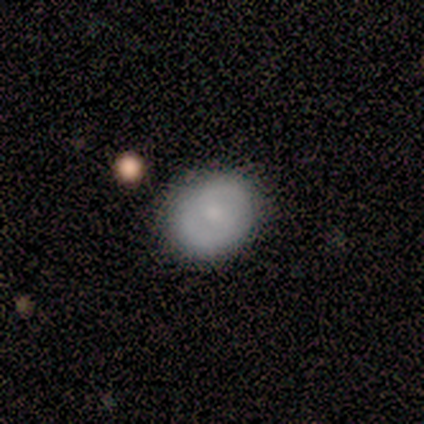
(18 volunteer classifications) Q: Smooth or featured?
A: smooth (67%); runner-up: featured or disk (33%)
Q: How rounded?
A: round (67%); runner-up: in between (33%)
Q: Merging?
A: none (89%); runner-up: minor disturbance (11%)